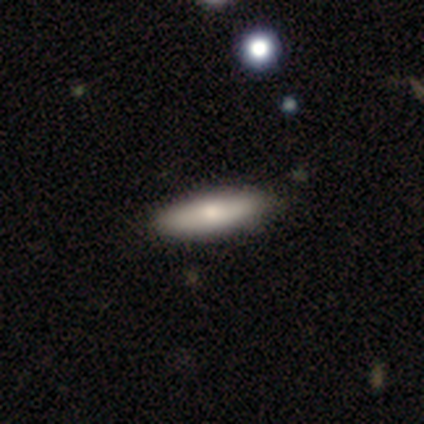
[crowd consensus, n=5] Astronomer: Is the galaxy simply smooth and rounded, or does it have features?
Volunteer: smooth — 80%.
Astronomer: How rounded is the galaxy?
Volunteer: cigar-shaped — 75%.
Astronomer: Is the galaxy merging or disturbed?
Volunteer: none — 100%.